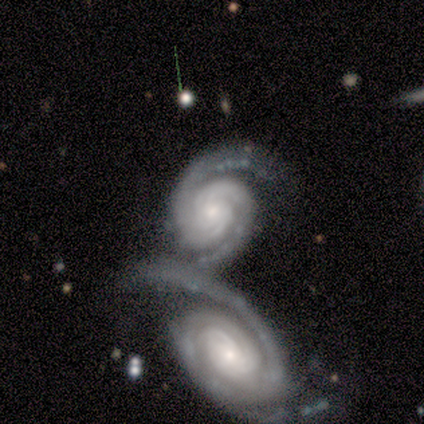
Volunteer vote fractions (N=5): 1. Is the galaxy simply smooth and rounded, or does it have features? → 100% featured or disk, 0% smooth, 0% star or artifact.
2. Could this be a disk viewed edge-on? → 100% no, 0% yes.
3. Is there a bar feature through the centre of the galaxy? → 80% no, 20% strong, 0% weak.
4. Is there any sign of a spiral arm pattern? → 100% yes, 0% no.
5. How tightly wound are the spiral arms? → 80% tight, 20% medium, 0% loose.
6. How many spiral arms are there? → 80% 2, 20% can't tell, 0% 1, 0% 3, 0% 4, 0% more than 4.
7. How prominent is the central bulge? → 60% moderate, 40% small, 0% dominant, 0% large, 0% none.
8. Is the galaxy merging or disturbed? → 80% merger, 20% none, 0% minor disturbance, 0% major disturbance.